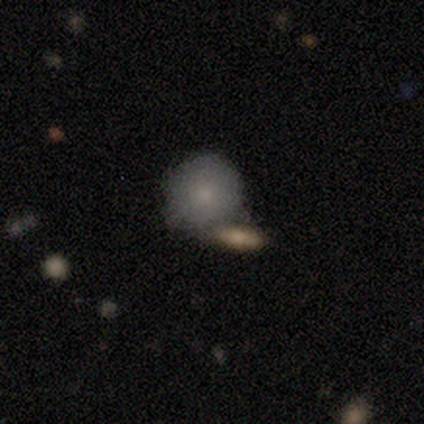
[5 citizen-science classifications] Q: Smooth or featured?
A: smooth (100%)
Q: How rounded?
A: round (100%)
Q: Merging?
A: none (80%); runner-up: merger (20%)